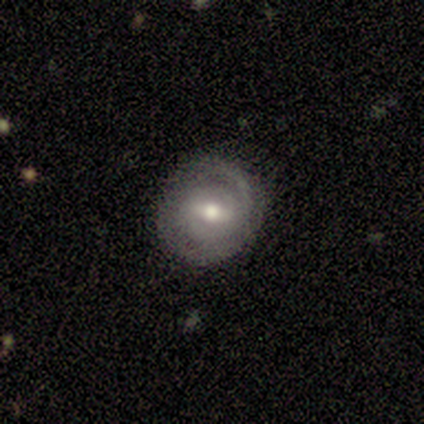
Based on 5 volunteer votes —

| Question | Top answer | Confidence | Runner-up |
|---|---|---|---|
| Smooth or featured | featured or disk | 80% | smooth (20%) |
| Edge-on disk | no | 100% | — |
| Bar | weak | 75% | strong (25%) |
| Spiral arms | yes | 100% | — |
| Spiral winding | medium | 50% | tied: loose (50%) |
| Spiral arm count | can't tell | 50% | 1 (25%) |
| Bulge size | moderate | 100% | — |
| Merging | none | 60% | minor disturbance (40%) |